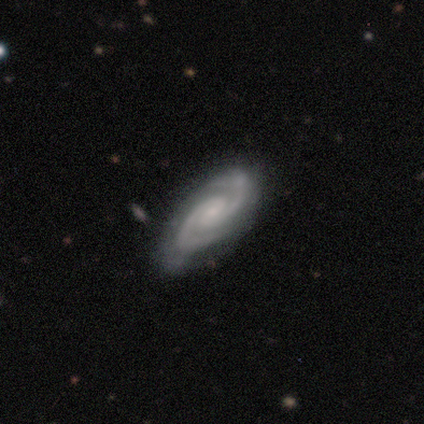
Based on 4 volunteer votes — Smooth or featured: featured or disk — 100%
Edge-on disk: no — 100%
Bar: no — 75% (weak — 25%)
Spiral arms: yes — 100%
Spiral winding: tight — 50% (tied with medium — 50%)
Spiral arm count: 2 — 100%
Bulge size: small — 75% (moderate — 25%)
Merging: none — 50% (tied with minor disturbance — 50%)